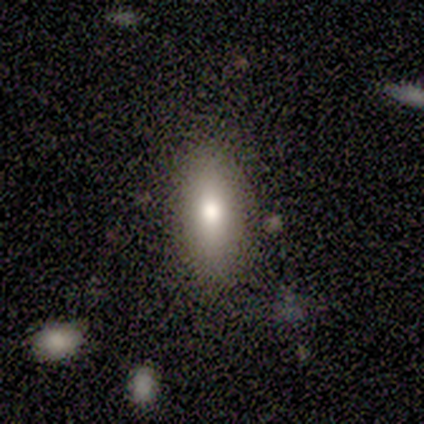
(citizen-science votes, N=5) Smooth or featured? smooth (80%)
How rounded? in between (75%)
Merging? none (100%)